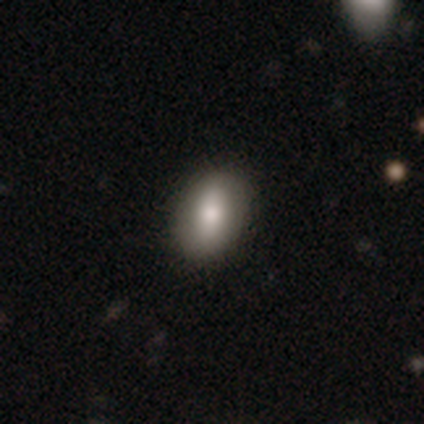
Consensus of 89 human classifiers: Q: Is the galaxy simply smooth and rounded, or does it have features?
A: smooth — 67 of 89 (75%).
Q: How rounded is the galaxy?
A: in between — 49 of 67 (73%).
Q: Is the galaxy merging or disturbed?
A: none — 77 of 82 (94%).